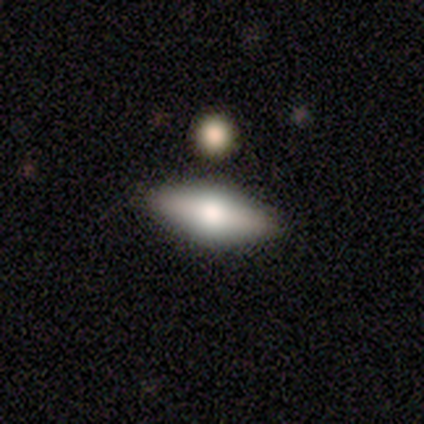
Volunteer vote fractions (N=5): This is likely a featured or disk galaxy (60%). It is likely viewed edge-on (67%). Edge-on bulge: clearly rounded (100%). Merging: clearly none (80%).